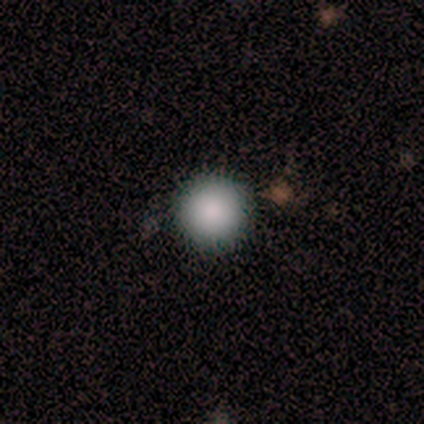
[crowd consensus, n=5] Morphology: type=smooth (80%); roundness=round (100%); merging=none (75%).